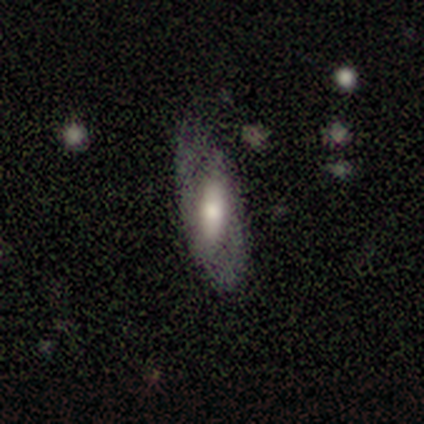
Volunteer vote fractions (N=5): Morphology: type=featured or disk (60%); edge-on=no (100%); bar=weak (100%); spiral arms=no (67%); bulge=small (67%); merging=none (75%).